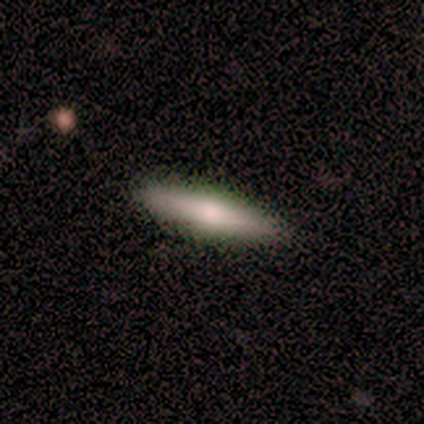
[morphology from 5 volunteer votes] A smooth galaxy with no disk features (60%) that is cigar-shaped (100%). Merging: none (100%).